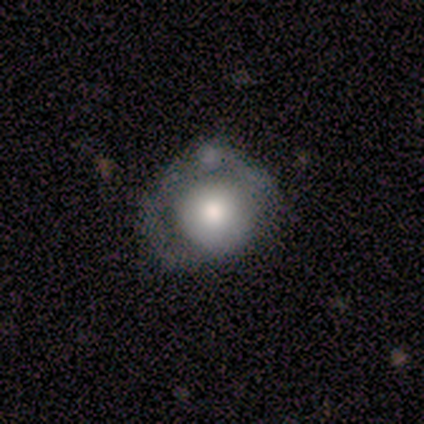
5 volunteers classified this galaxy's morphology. smooth 100%, featured or disk 0%, star or artifact 0%. Down the decision tree: how rounded — round (100%); merging — none (40%, tied with minor disturbance).